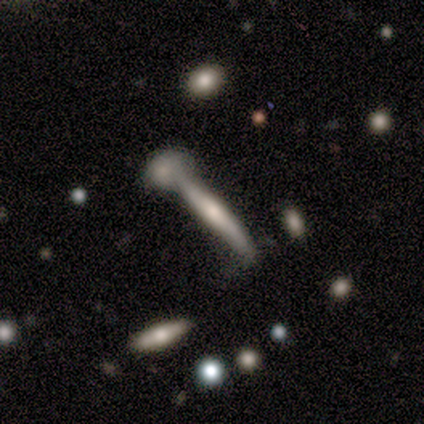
A featured or disk galaxy (60%) viewed edge-on (100%) with a rounded central bulge (100%). Merging: none (75%).